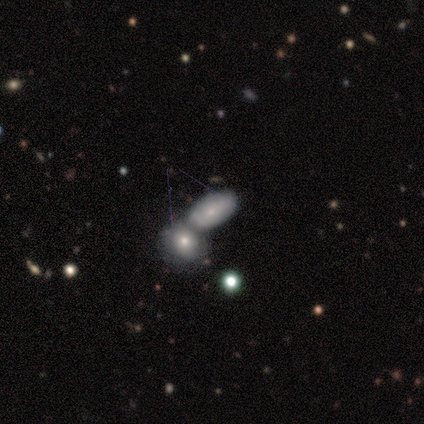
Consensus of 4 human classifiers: This appears to be a smooth galaxy with no disk features (50%) that is in between round and cigar-shaped (50%, tied with cigar-shaped). Merging: merger (67%).